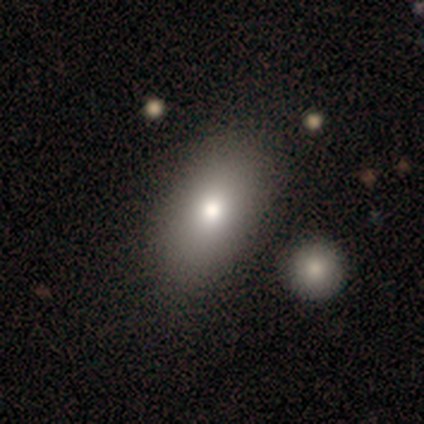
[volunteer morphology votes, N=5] This appears to be a smooth galaxy with no disk features (60%) that is in between round and cigar-shaped (100%). Merging: none (100%).